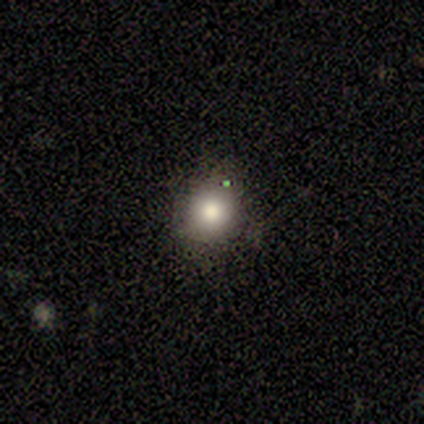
Overall: smooth (60%; featured or disk 20%). How rounded: round (100%). Merging: none (50%, tied with minor disturbance).